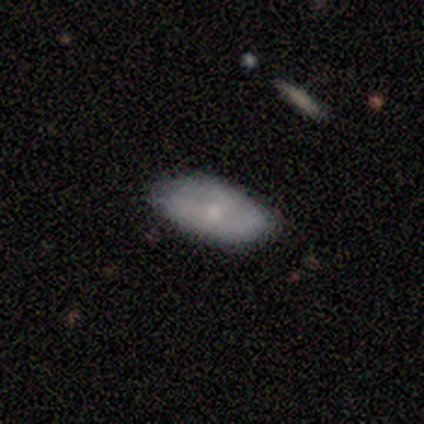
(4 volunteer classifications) This is possibly a smooth galaxy (50%, tied with featured or disk). How rounded: clearly in between (100%). Merging: clearly none (100%).